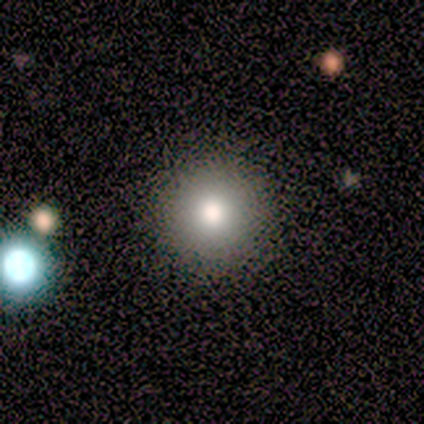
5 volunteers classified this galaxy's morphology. Overall: smooth (80%). How rounded: round (75%). Merging: none (100%).